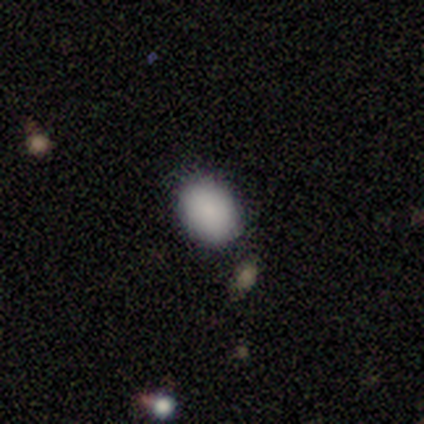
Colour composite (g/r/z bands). It shows a smooth galaxy with no disk features (100%) that is in between round and cigar-shaped (80%). Merging: none (100%).